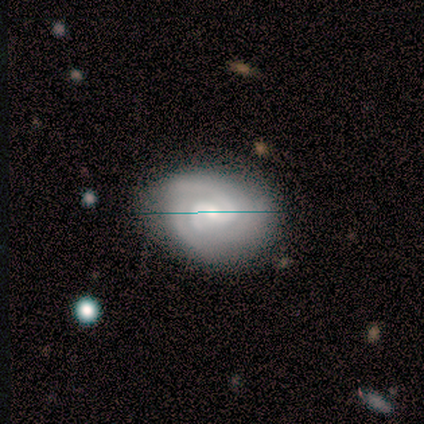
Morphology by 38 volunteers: Volunteers were most divided on "bulge size": small: 49%, moderate: 43%, large: 6%, none: 3%, dominant: 0%. Remaining: edge-on disk — no (100%); spiral arms — yes (100%); smooth or featured — featured or disk (92%); merging — none (77%); bar — weak (74%); spiral winding — tight (54%); spiral arm count — 2 (49%).